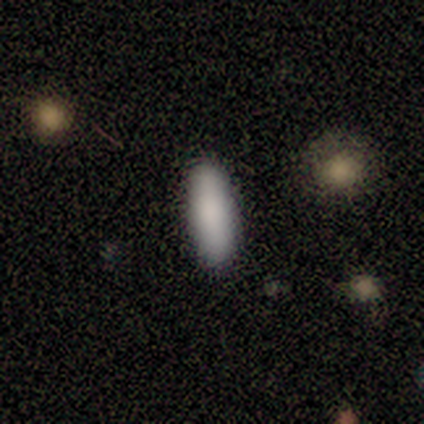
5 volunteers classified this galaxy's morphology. type=smooth (80%); roundness=in between (75%); merging=none (100%).